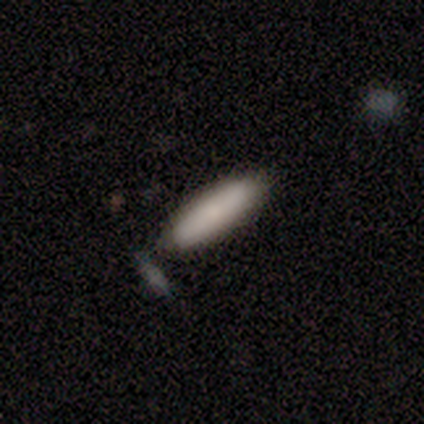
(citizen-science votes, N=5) smooth_or_featured: smooth (p=0.80) [alt: featured or disk p=0.20]
how_rounded: in between (p=0.75) [alt: cigar-shaped p=0.25]
merging: none (p=0.80) [alt: merger p=0.20]